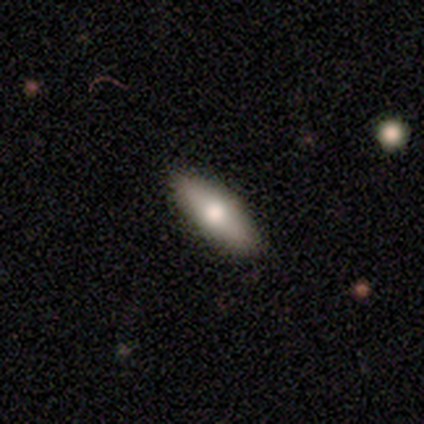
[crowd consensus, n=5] A smooth galaxy with no disk features (100%) that is in between round and cigar-shaped (80%).

Vote fractions:
- Smooth or featured? smooth: 100% / featured or disk: 0% / star or artifact: 0%
- How rounded? in between: 80% / cigar-shaped: 20% / round: 0%
- Merging? none: 100% / minor disturbance: 0% / major disturbance: 0% / merger: 0%